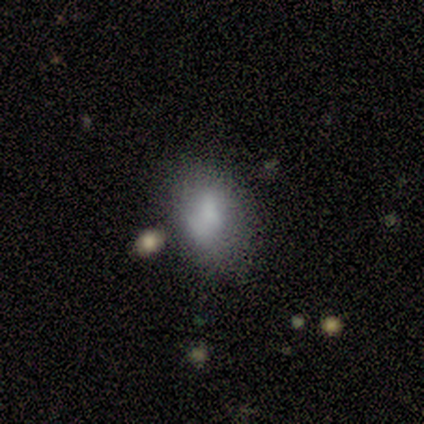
Overall: smooth (60%; featured or disk 20%). How rounded: in between (100%). Merging: none (75%).